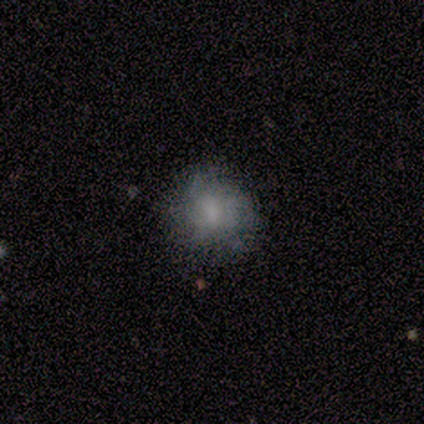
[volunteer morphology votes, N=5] Volunteers were most divided on "how rounded": in between: 67%, round: 33%, cigar-shaped: 0%. More confident: merging — none (100%); smooth or featured — smooth (60%).